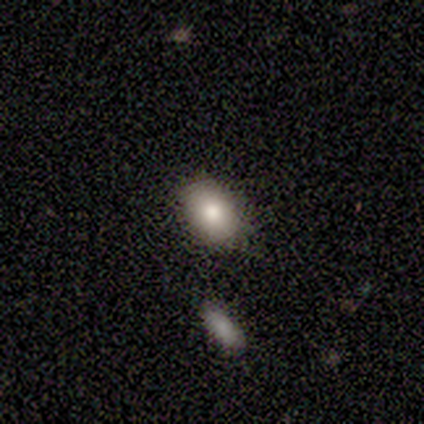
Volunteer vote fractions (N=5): Smooth or featured? 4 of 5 (80%) said smooth. How rounded? 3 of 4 (75%) said in between. Merging? 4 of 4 (100%) said none.